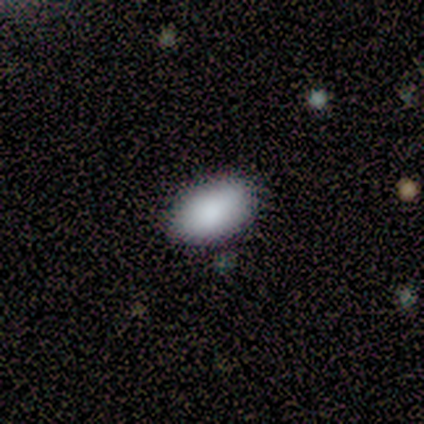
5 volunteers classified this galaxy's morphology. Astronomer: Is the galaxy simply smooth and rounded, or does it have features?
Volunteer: smooth — 100%.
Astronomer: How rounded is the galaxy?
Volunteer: in between — 100%.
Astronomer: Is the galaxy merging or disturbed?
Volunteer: none — 100%.